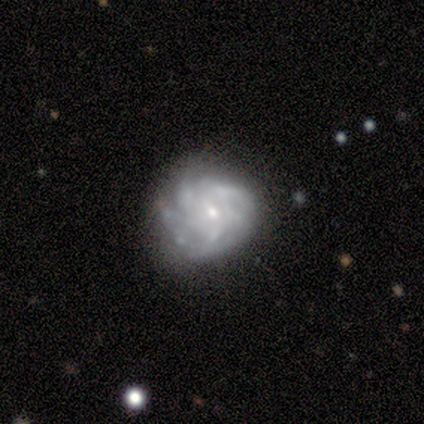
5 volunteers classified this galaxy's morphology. This is likely a featured or disk galaxy (60%). It is clearly not viewed edge-on (100%). Bar: likely no (67%). Spiral arm pattern: likely yes (67%). Spiral arm count: possibly 4 (50%, tied with can't tell). Spiral winding: possibly tight (50%, tied with medium). Central bulge: clearly small (100%). Merging: clearly none (80%).